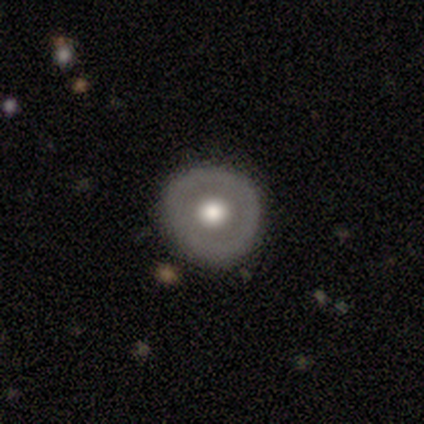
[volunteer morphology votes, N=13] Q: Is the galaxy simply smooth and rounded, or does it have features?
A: featured or disk — 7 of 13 (54%).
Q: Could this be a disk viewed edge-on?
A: no — 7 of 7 (100%).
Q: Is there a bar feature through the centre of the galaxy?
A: no — 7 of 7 (100%).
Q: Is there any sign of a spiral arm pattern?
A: no — 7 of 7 (100%).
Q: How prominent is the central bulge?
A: moderate — 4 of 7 (57%).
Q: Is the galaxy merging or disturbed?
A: none — 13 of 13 (100%).